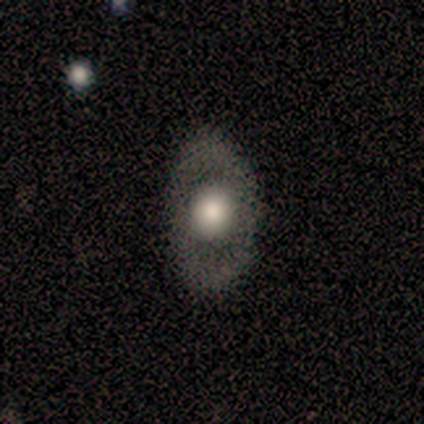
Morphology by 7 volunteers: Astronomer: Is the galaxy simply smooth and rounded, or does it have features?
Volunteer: smooth — 57% (runner-up: featured or disk, 43%).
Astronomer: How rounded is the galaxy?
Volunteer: round — 50%, tied with in between at 50%.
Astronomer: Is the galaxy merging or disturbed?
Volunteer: none — 86%.